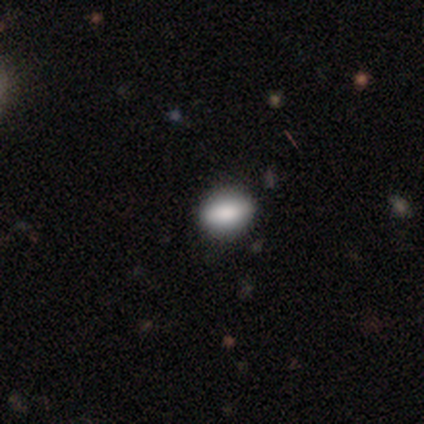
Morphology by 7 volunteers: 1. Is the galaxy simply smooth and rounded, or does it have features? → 86% smooth, 14% star or artifact, 0% featured or disk.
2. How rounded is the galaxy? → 83% in between, 17% round, 0% cigar-shaped.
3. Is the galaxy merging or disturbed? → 67% none, 33% minor disturbance, 0% major disturbance, 0% merger.